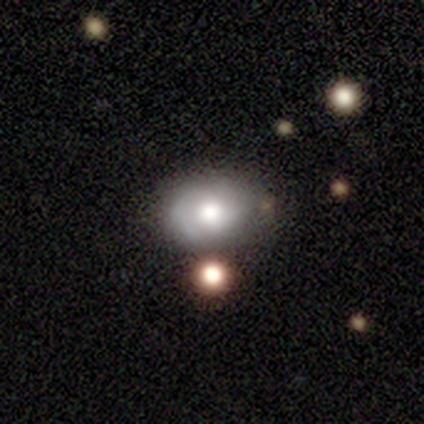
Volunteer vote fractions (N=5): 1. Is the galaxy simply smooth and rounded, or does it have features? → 60% featured or disk, 20% smooth, 20% star or artifact.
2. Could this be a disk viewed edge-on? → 100% no, 0% yes.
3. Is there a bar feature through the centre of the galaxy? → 100% no, 0% strong, 0% weak.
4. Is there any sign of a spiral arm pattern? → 100% yes, 0% no.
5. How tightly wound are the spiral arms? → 67% tight, 33% medium, 0% loose.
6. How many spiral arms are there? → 100% 2, 0% 1, 0% 3, 0% 4, 0% more than 4, 0% can't tell.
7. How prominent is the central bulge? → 67% moderate, 33% large, 0% dominant, 0% small, 0% none.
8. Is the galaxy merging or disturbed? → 75% none, 25% minor disturbance, 0% major disturbance, 0% merger.